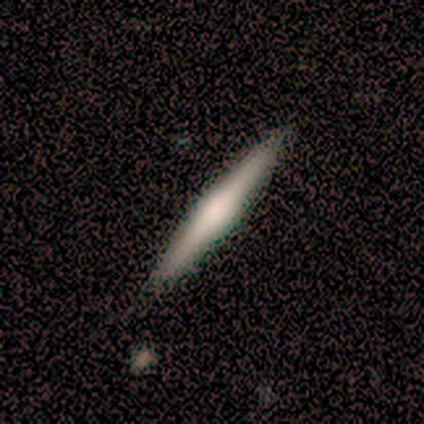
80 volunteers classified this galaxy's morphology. This appears to be a featured or disk galaxy (56%) viewed edge-on (98%) with a rounded central bulge (48%). Merging: none (87%).